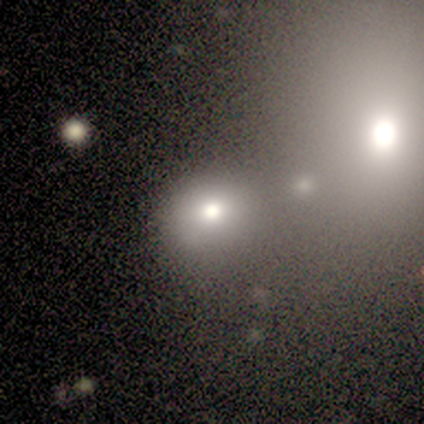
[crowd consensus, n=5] Overall: smooth (60%; featured or disk 20%). How rounded: round (67%; in between 33%). Merging: none (75%).